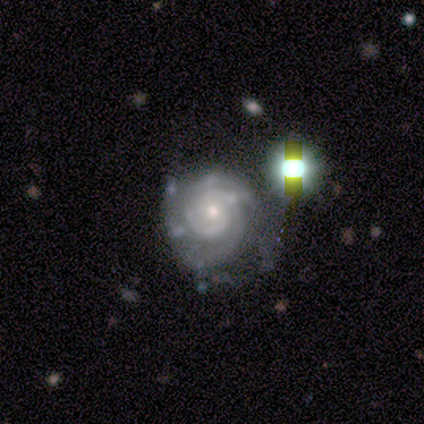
featured or disk 100%, smooth 0%, star or artifact 0%. Down the decision tree: edge-on disk — no (100%); bar — no (80%); spiral arms — yes (100%); spiral arm count — 2 (80%); spiral winding — tight (100%); bulge size — small (80%); merging — none (40%, tied with minor disturbance).